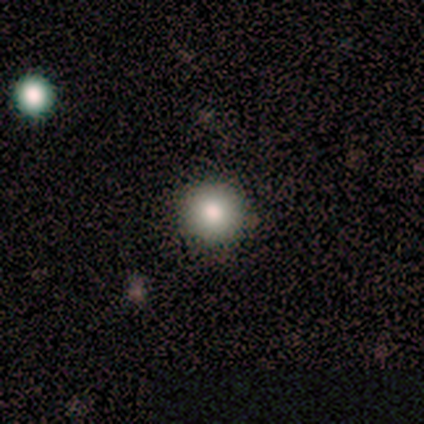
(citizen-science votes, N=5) Smooth or featured: smooth — 40% (tied with star or artifact — 40%)
How rounded: round — 100%
Merging: none — 67% (minor disturbance — 33%)